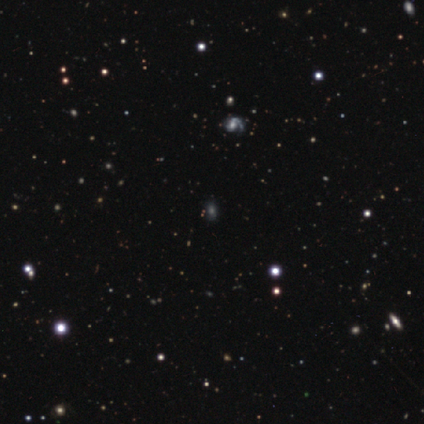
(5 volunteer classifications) smooth_or_featured: star or artifact (p=1.00)